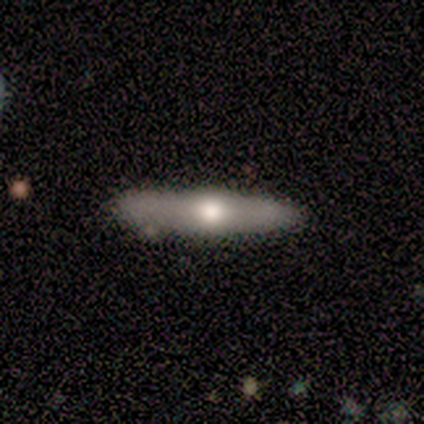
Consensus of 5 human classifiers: smooth_or_featured: featured or disk (p=0.80) [alt: smooth p=0.20]
disk_edge_on: yes (p=1.00)
edge_on_bulge: rounded (p=1.00)
merging: none (p=0.80) [alt: minor disturbance p=0.20]